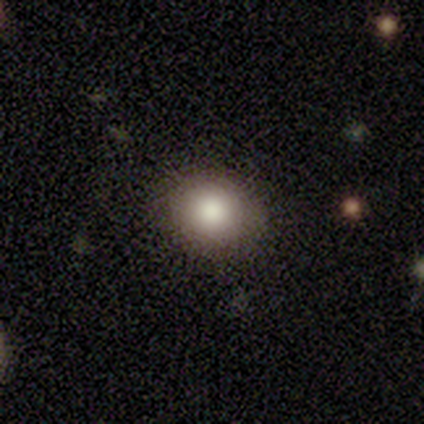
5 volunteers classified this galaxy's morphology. type=smooth (80%); roundness=round (100%); merging=none (80%).